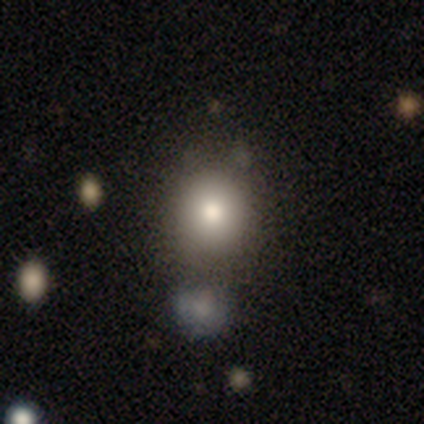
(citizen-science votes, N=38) A smooth galaxy with no disk features (76%) that is round (83%). Merging: none (72%).